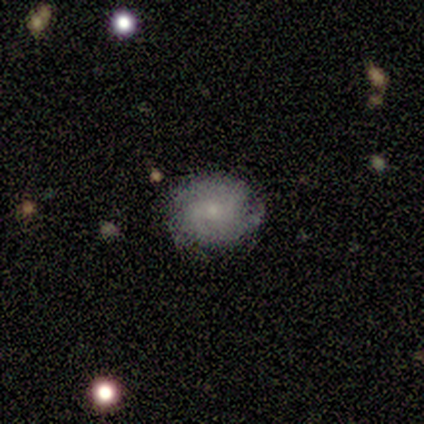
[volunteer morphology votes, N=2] type=featured or disk (100%); edge-on=no (100%); bar=no (100%); spiral arms=yes (50%, tied with no); winding=tight (100%); arm count=2 (100%); bulge=small (100%); merging=none (100%).